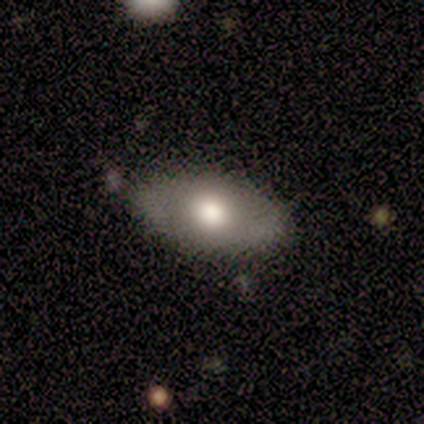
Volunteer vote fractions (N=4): smooth_or_featured: smooth (p=0.75) [alt: featured or disk p=0.25]
how_rounded: in between (p=0.67) [alt: round p=0.33]
merging: none (p=0.75) [alt: minor disturbance p=0.25]